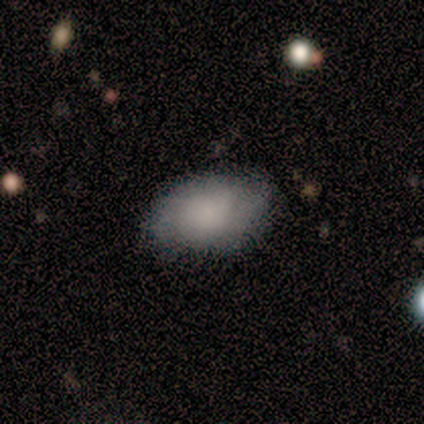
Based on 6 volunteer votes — A smooth galaxy with no disk features (50%, tied with featured or disk) that is in between round and cigar-shaped (100%). Merging: none (67%).